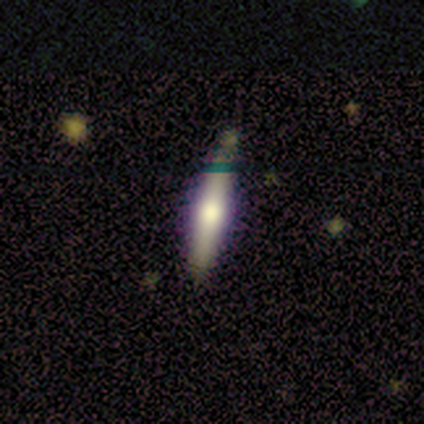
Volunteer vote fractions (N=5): Q: Smooth or featured?
A: featured or disk (60%); runner-up: smooth (40%)
Q: Edge-on disk?
A: yes (100%)
Q: Edge-on bulge?
A: rounded (100%)
Q: Merging?
A: none (80%); runner-up: minor disturbance (20%)